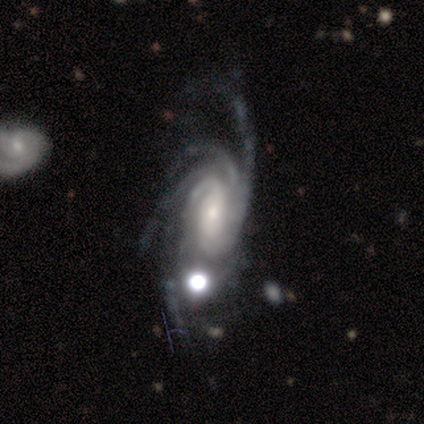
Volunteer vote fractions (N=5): Overall: featured or disk (100%). Edge-on disk: no (100%). Bar: no (60%; strong 20%). Spiral arms: yes (100%). Spiral arm count: more than 4 (60%; 3 20%). Spiral winding: tight (100%). Bulge size: small (60%; large 20%). Merging: minor disturbance (60%; none 40%).